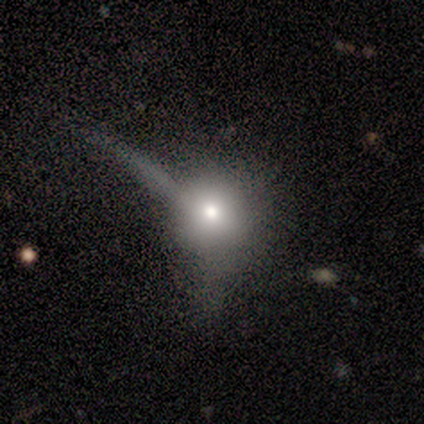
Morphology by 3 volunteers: This appears to be a star or artifact, not a galaxy (67%).